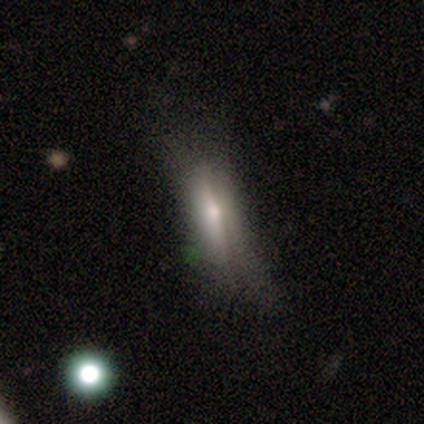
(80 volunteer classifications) Smooth or featured? smooth (54%)
How rounded? in between (56%)
Merging? none (54%)